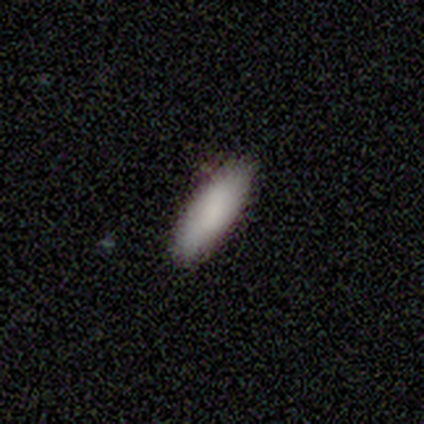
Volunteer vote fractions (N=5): Smooth or featured: smooth — 100%
How rounded: in between — 60% (cigar-shaped — 40%)
Merging: none — 100%